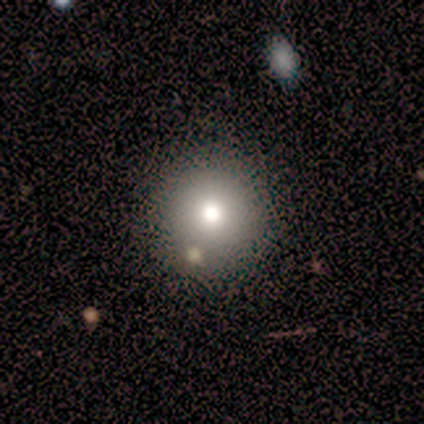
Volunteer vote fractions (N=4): Overall: smooth (100%). How rounded: round (100%). Merging: none (75%).